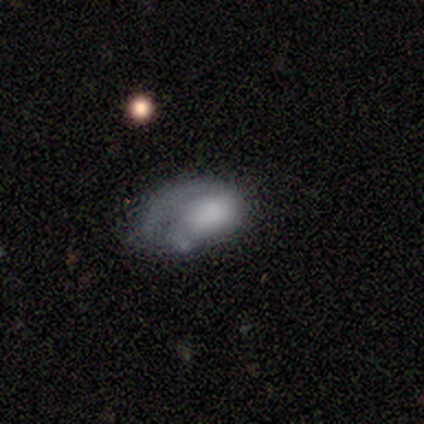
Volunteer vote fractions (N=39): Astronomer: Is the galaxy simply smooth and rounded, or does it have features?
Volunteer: smooth — 46%, tied with featured or disk at 46%.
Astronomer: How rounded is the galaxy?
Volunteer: in between — 94%.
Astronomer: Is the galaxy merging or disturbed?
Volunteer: major disturbance — 44% (runner-up: none, 33%).